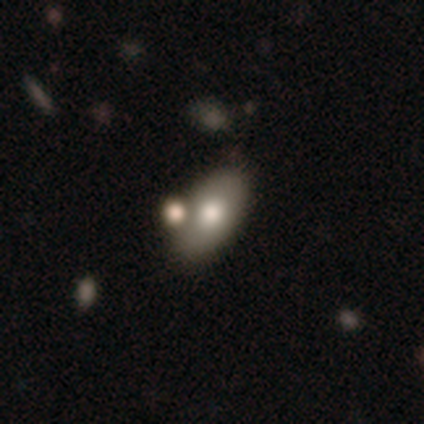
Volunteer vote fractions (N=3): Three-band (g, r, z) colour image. It shows a smooth galaxy with no disk features (67%) that is round (50%, tied with in between). Merging: none (100%).